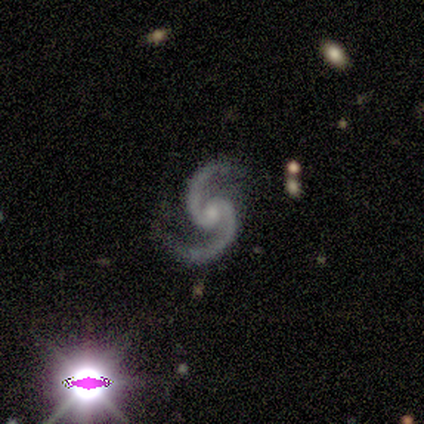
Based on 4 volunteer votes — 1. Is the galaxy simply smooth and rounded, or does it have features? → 100% featured or disk, 0% smooth, 0% star or artifact.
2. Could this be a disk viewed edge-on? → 100% no, 0% yes.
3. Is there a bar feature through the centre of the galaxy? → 50% weak, 25% strong, 25% no.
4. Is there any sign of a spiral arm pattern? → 100% yes, 0% no.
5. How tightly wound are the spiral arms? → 100% medium, 0% tight, 0% loose.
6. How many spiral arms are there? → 100% 2, 0% 1, 0% 3, 0% 4, 0% more than 4, 0% can't tell.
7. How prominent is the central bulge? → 50% moderate (tied), 50% small (tied), 0% dominant, 0% large, 0% none.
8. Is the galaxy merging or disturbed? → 100% none, 0% minor disturbance, 0% major disturbance, 0% merger.